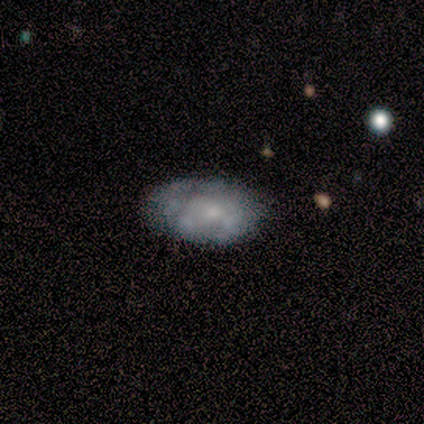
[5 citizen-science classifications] Overall: featured or disk (80%). Edge-on disk: no (100%). Bar: no (100%). Spiral arms: no (100%). Bulge size: dominant (50%, tied with small). Merging: none (60%; minor disturbance 40%).